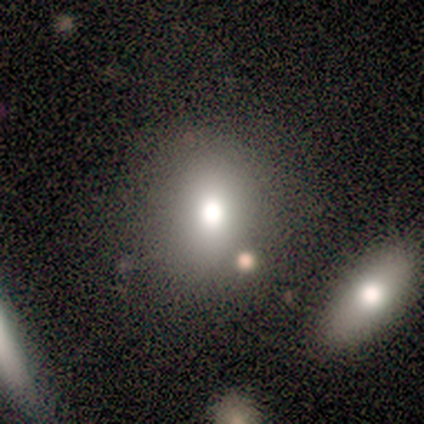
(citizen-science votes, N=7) A smooth galaxy with no disk features (71%) that is round (60%). Merging: none (67%).